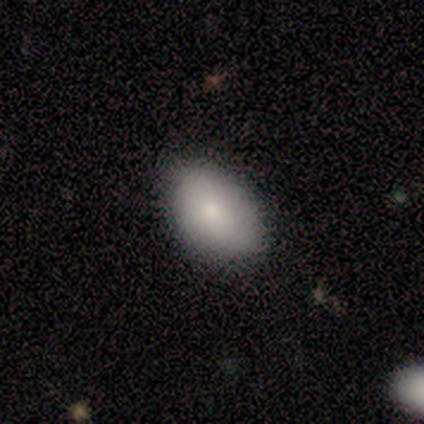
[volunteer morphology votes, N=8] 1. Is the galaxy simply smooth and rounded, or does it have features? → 88% smooth, 12% featured or disk, 0% star or artifact.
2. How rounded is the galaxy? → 100% in between, 0% round, 0% cigar-shaped.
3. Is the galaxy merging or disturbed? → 88% none, 12% minor disturbance, 0% major disturbance, 0% merger.